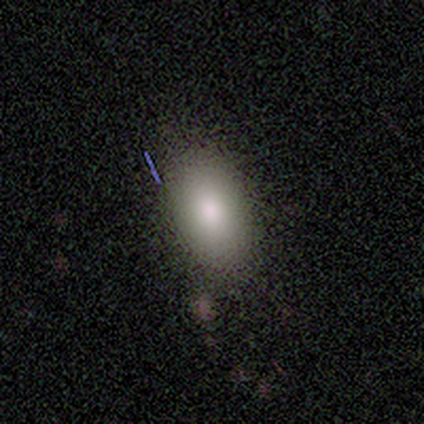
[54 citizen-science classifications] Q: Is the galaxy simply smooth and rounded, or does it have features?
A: smooth — 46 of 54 (85%).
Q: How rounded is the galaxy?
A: in between — 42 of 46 (91%).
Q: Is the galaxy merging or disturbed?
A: none — 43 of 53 (81%).